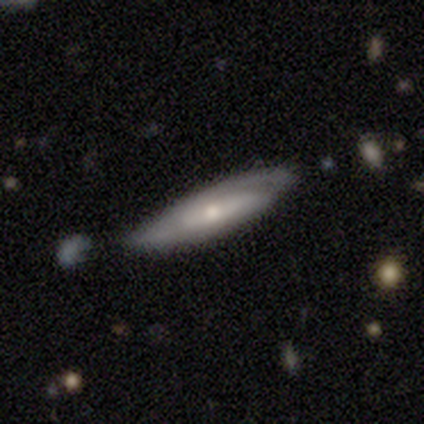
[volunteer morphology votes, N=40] Overall: featured or disk (62%; smooth 30%). Edge-on disk: no (68%; yes 32%). Bar: no (59%; weak 29%). Spiral arms: yes (88%). Spiral arm count: 2 (67%; can't tell 27%). Spiral winding: tight (47%; medium 40%). Bulge size: moderate (47%, tied with small). Merging: none (49%).